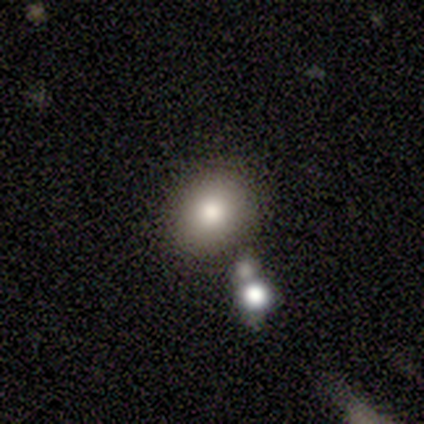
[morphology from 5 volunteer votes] This appears to be a smooth galaxy with no disk features (80%) that is in between round and cigar-shaped (75%). Merging: none (100%).